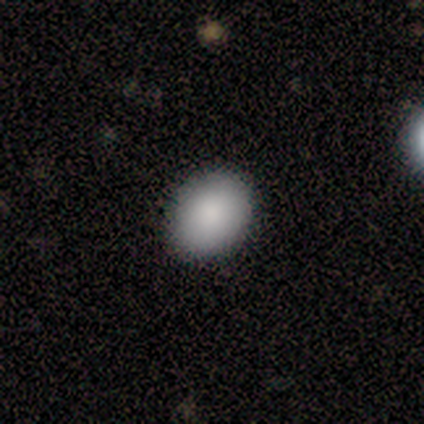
Smooth or featured? 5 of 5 (100%) said smooth. How rounded? 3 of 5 (60%) said in between. Merging? 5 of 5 (100%) said none.